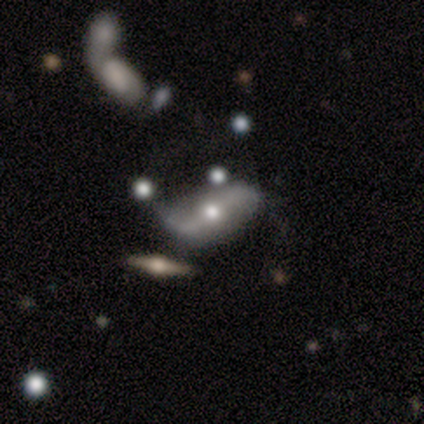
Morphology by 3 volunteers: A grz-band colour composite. It shows a featured or disk galaxy (67%) with a strong bar (50%, tied with no), 2 (100%) loose (100%) spiral arms (100%) and a moderate central bulge (100%). Merging: none (50%, tied with merger).